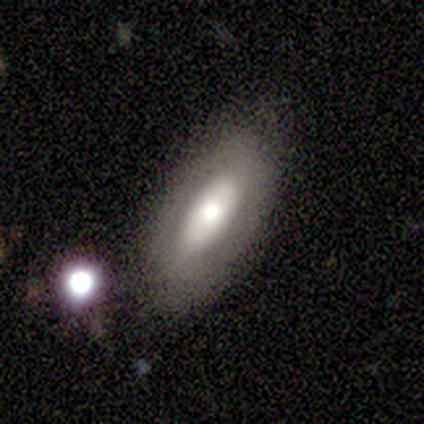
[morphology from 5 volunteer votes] Q: Smooth or featured?
A: featured or disk (60%); runner-up: smooth (40%)
Q: Edge-on disk?
A: no (67%); runner-up: yes (33%)
Q: Bar?
A: no (100%)
Q: Spiral arms?
A: no (100%)
Q: Bulge size?
A: large (50%); tied with: moderate (50%)
Q: Merging?
A: none (100%)